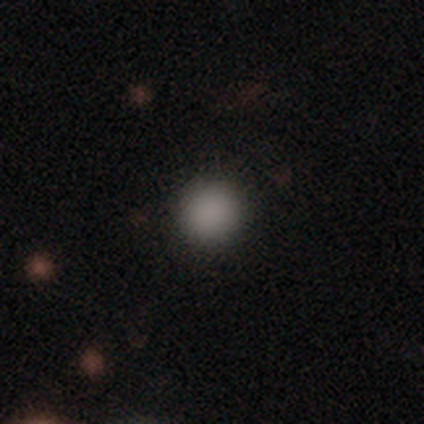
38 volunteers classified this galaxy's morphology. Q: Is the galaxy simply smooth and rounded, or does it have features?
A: smooth — 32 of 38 (84%).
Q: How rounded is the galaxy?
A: round — 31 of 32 (97%).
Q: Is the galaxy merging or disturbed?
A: none — 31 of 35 (89%).